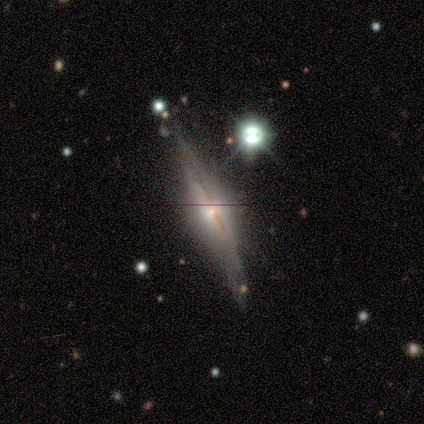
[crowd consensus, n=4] Q: Smooth or featured?
A: featured or disk (75%); runner-up: star or artifact (25%)
Q: Edge-on disk?
A: yes (100%)
Q: Edge-on bulge?
A: rounded (100%)
Q: Merging?
A: none (67%); runner-up: minor disturbance (33%)